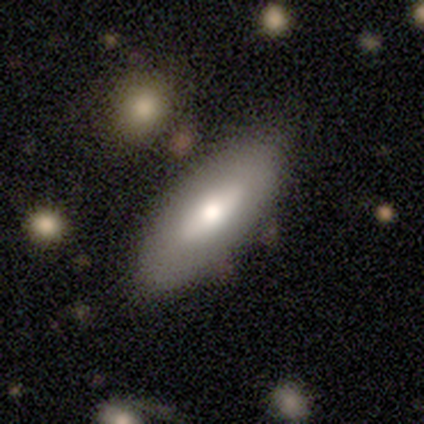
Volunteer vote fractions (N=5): Smooth or featured: smooth — 60% (featured or disk — 40%)
How rounded: in between — 100%
Merging: none — 60% (minor disturbance — 20%)